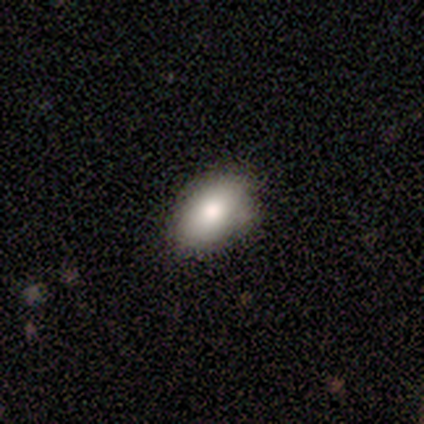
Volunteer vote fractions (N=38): smooth-or-featured: smooth: 84% | featured or disk: 11% | star or artifact: 5%
  how-rounded: in between: 88% | round: 12% | cigar-shaped: 0%
  merging: none: 83% | minor disturbance: 11% | merger: 6% | major disturbance: 0%